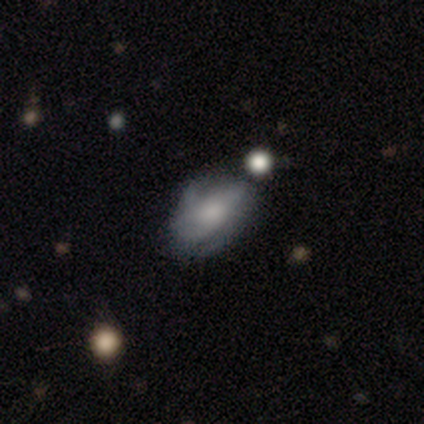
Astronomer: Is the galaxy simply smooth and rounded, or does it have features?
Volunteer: smooth — 50% (runner-up: featured or disk, 38%).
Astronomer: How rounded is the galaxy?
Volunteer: in between — 75%.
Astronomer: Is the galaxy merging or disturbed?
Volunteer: minor disturbance — 43% (runner-up: none, 29%).